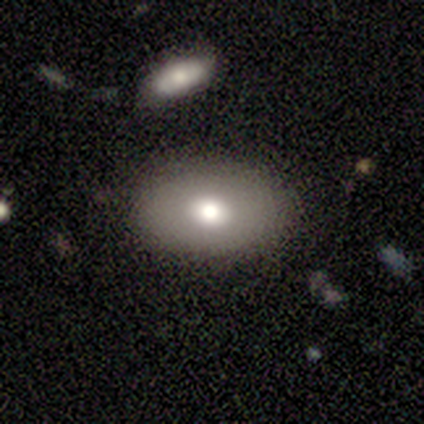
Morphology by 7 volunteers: A smooth galaxy with no disk features (71%) that is in between round and cigar-shaped (100%). Merging: none (100%).